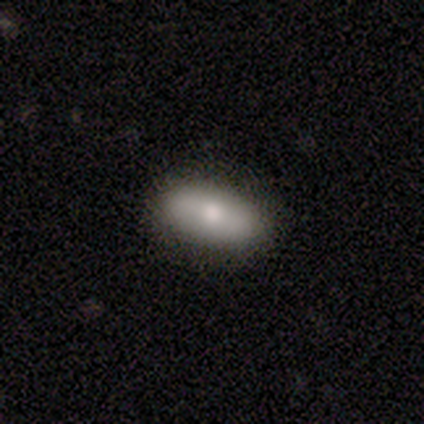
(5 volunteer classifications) smooth_or_featured: smooth (p=0.80) [alt: featured or disk p=0.20]
how_rounded: in between (p=0.75) [alt: cigar-shaped p=0.25]
merging: none (p=0.80) [alt: minor disturbance p=0.20]